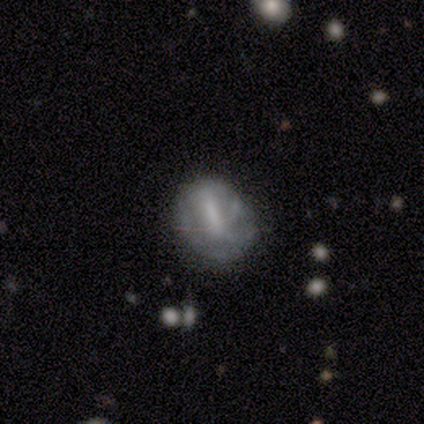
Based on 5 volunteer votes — A featured or disk galaxy (60%) with no bar (67%), no spiral arms (100%) and a moderate central bulge (33%, tied with small and none). Merging: minor disturbance (60%).